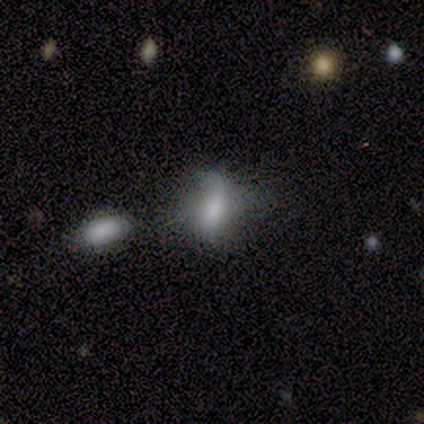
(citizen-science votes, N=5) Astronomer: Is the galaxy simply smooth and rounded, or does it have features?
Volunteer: smooth — 60%.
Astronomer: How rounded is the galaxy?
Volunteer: round — 67%.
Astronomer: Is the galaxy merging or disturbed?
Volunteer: minor disturbance — 75%.